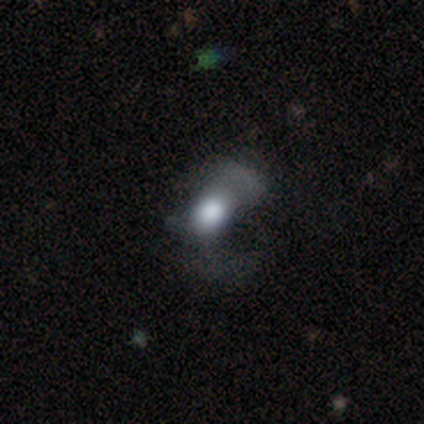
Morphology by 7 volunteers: This is marginally a featured or disk galaxy (43%). It is clearly not viewed edge-on (100%). Bar: clearly no (100%). Spiral arm pattern: clearly no (100%). Central bulge: marginally dominant (33%, tied with large and moderate). Merging: clearly major disturbance (100%).